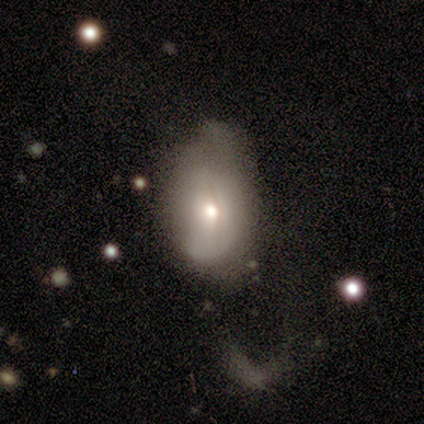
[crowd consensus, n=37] Smooth or featured? 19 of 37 (51%) said featured or disk. Edge-on disk? 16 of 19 (84%) said no. Bar? 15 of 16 (94%) said no. Spiral arms? 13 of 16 (81%) said no. Bulge size? 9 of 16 (56%) said moderate. Merging? 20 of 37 (54%) said major disturbance.